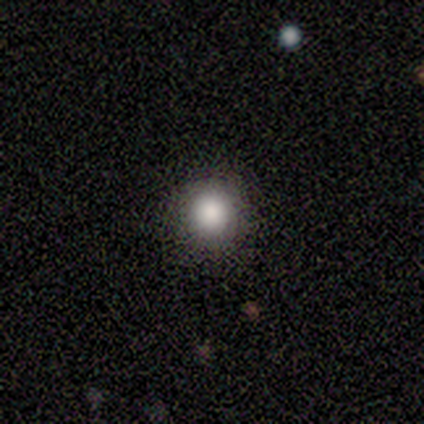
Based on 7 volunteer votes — Morphology: type=smooth (86%); roundness=round (83%); merging=none (83%).